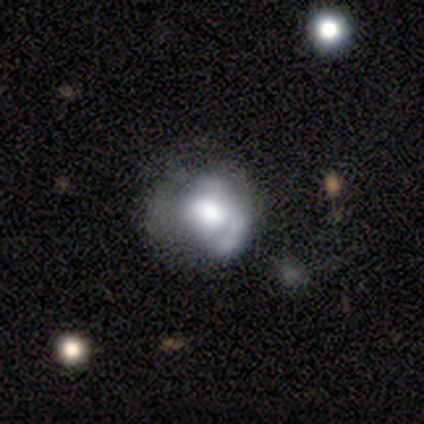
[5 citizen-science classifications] Smooth or featured? 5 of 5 (100%) said featured or disk. Edge-on disk? 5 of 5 (100%) said no. Bar? 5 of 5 (100%) said no. Spiral arms? 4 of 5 (80%) said no. Bulge size? 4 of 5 (80%) said large. Merging? 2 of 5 (40%) said major disturbance.